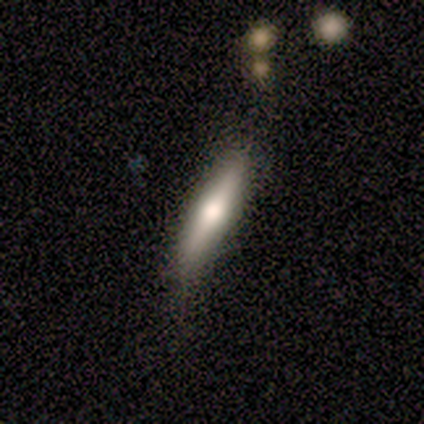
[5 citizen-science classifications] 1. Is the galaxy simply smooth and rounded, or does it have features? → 60% smooth, 40% featured or disk, 0% star or artifact.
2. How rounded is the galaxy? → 67% cigar-shaped, 33% in between, 0% round.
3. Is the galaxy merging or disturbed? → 100% none, 0% minor disturbance, 0% major disturbance, 0% merger.